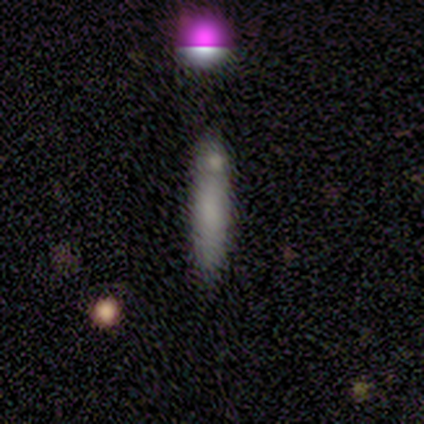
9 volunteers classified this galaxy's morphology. Volunteers were most divided on "merging": none: 67%, merger: 22%, minor disturbance: 11%, major disturbance: 0%. More confident: how rounded — cigar-shaped (100%); smooth or featured — smooth (89%).